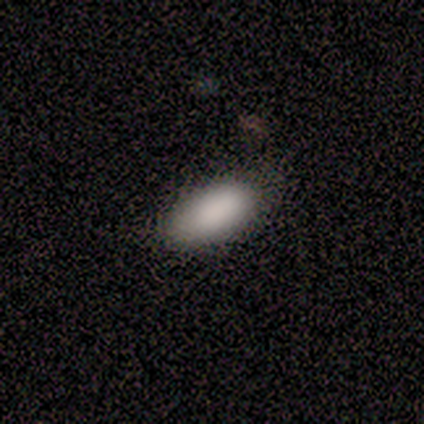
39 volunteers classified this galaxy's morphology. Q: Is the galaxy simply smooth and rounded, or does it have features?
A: smooth — 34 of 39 (87%).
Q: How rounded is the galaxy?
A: in between — 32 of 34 (94%).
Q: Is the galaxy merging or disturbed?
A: none — 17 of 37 (46%).